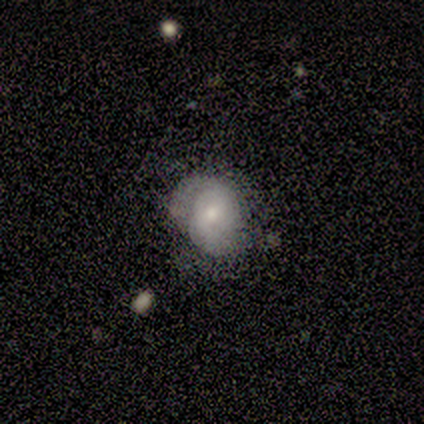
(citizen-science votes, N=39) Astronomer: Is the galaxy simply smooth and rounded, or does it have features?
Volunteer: smooth — 51% (runner-up: featured or disk, 41%).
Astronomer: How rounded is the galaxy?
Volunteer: round — 55% (runner-up: in between, 45%).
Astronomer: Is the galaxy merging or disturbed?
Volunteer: none — 69%.